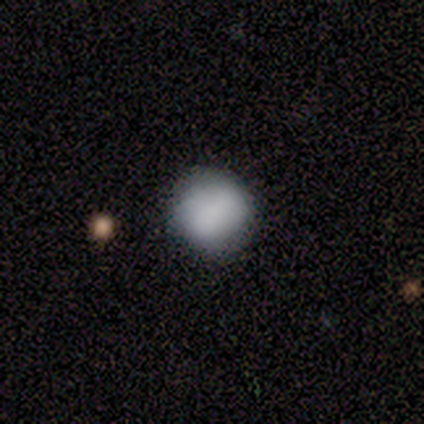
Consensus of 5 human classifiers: A smooth galaxy with no disk features (100%) that is round (100%).

Vote fractions:
- Smooth or featured? smooth: 100% / featured or disk: 0% / star or artifact: 0%
- How rounded? round: 100% / in between: 0% / cigar-shaped: 0%
- Merging? none: 100% / minor disturbance: 0% / major disturbance: 0% / merger: 0%